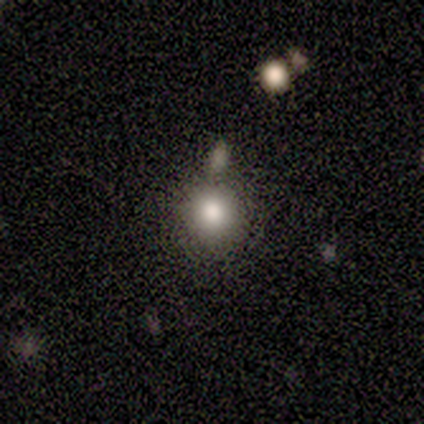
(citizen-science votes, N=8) Q: Smooth or featured?
A: smooth (88%); runner-up: featured or disk (12%)
Q: How rounded?
A: round (86%); runner-up: in between (14%)
Q: Merging?
A: none (75%); runner-up: minor disturbance (12%)